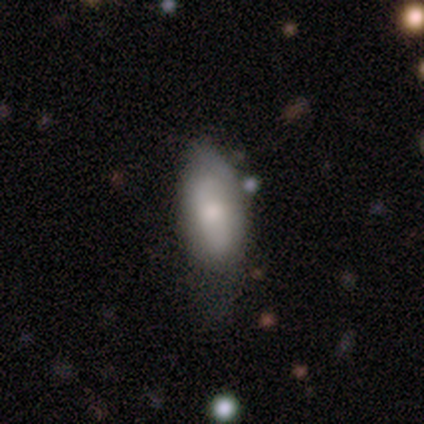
A smooth galaxy with no disk features (60%) that is in between round and cigar-shaped (100%). Merging: minor disturbance (75%).